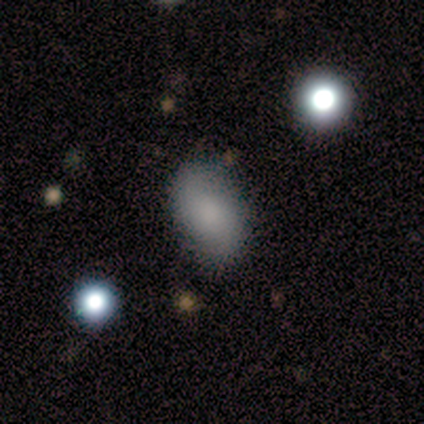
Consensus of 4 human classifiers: This appears to be a smooth galaxy with no disk features (100%) that is in between round and cigar-shaped (100%). Merging: none (100%).